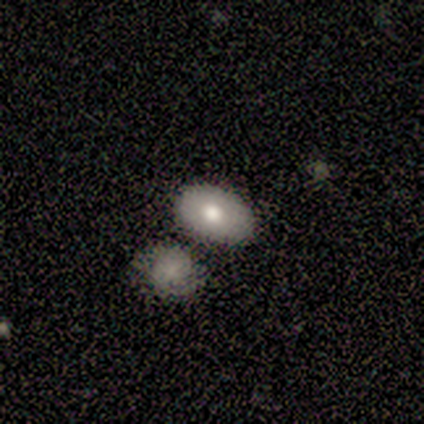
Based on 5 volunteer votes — smooth-or-featured: smooth: 80% | featured or disk: 20% | star or artifact: 0%
  how-rounded: in between: 100% | round: 0% | cigar-shaped: 0%
  merging: none: 80% | merger: 20% | minor disturbance: 0% | major disturbance: 0%